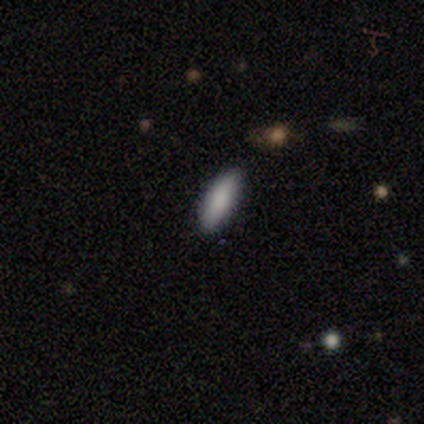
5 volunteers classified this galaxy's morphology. This is clearly a smooth galaxy (80%). How rounded: likely in between (75%). Merging: clearly none (100%).